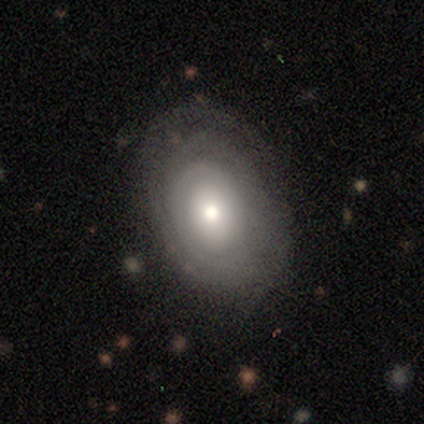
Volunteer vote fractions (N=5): This appears to be a featured or disk galaxy (60%) with no bar (67%), no spiral arms (67%) and a large central bulge (67%). Merging: none (80%).